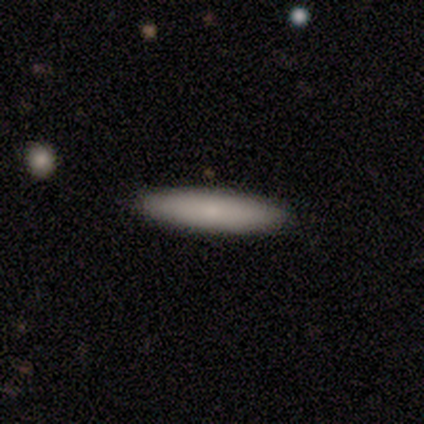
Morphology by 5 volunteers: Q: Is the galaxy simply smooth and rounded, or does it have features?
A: smooth — 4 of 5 (80%).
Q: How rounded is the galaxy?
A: cigar-shaped — 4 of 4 (100%).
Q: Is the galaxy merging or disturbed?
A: none — 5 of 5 (100%).